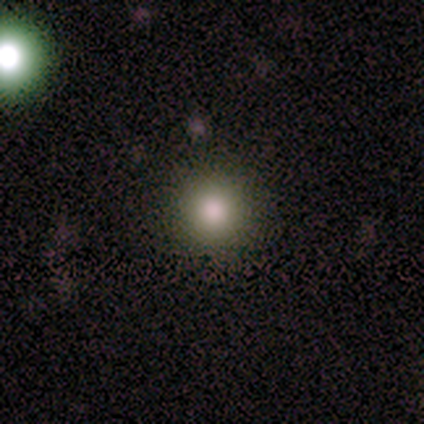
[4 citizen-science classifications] Q: Smooth or featured?
A: smooth (100%)
Q: How rounded?
A: round (100%)
Q: Merging?
A: none (100%)